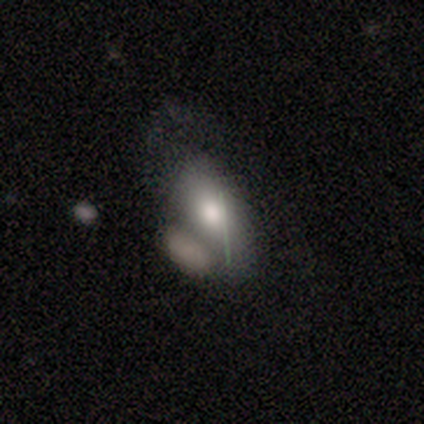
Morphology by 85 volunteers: smooth 67%, featured or disk 25%, star or artifact 8%. Down the decision tree: how rounded — in between (88%); merging — none (32%).